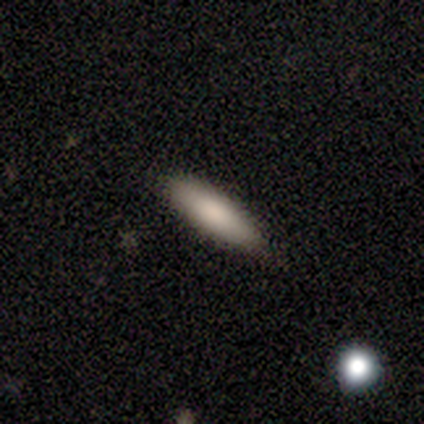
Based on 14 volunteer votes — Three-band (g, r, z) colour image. It shows a smooth galaxy with no disk features (79%) that is cigar-shaped (55%). Merging: none (92%).